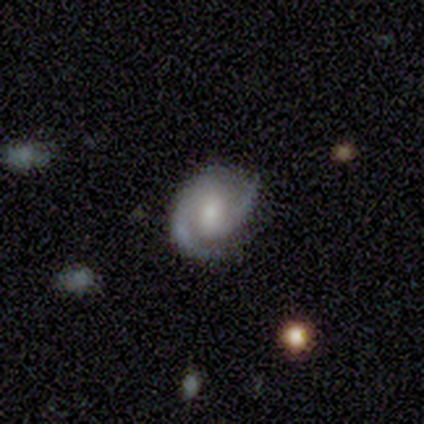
This is clearly a featured or disk galaxy (93%). It is clearly not viewed edge-on (96%). Bar: possibly weak (45%). Spiral arm pattern: clearly yes (97%). Spiral arm count: clearly 2 (94%). Spiral winding: possibly medium (55%). Central bulge: marginally small (44%). Merging: likely none (72%).